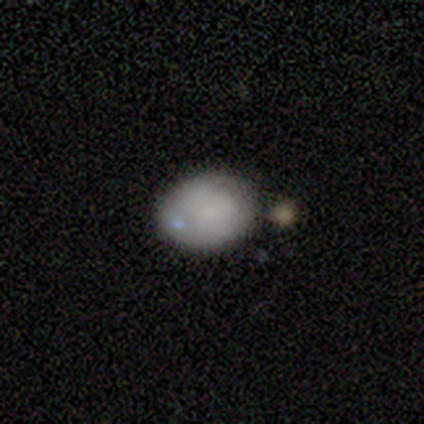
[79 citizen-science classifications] Smooth or featured? 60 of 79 (76%) said smooth. How rounded? 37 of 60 (62%) said in between. Merging? 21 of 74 (28%) said none.